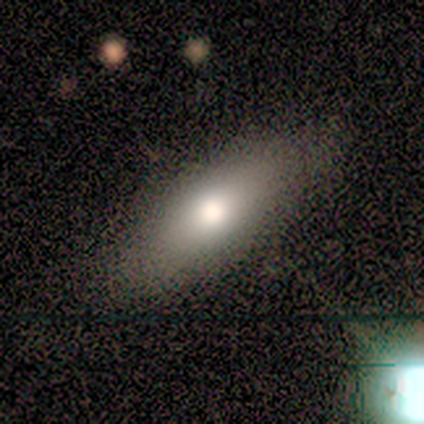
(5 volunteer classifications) Volunteers were most divided on "merging": none: 60%, minor disturbance: 40%, major disturbance: 0%, merger: 0%. More confident: smooth or featured — smooth (80%); how rounded — cigar-shaped (75%).